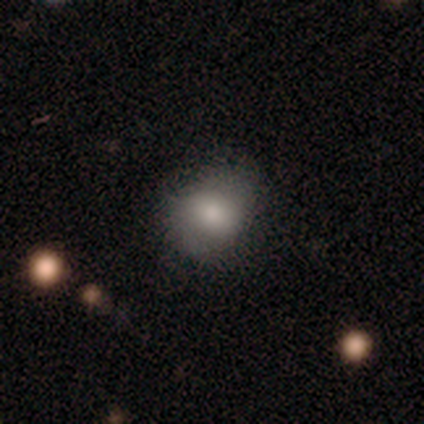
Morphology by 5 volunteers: Smooth or featured? smooth (60%)
How rounded? round (67%)
Merging? none (50%, tied with minor disturbance)